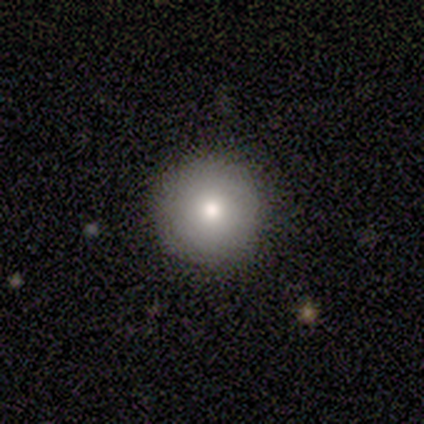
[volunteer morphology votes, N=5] Smooth or featured? smooth (100%)
How rounded? round (100%)
Merging? none (100%)